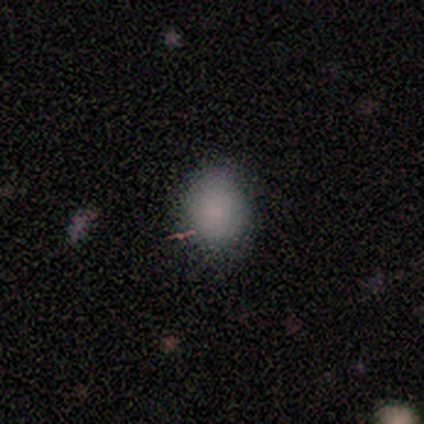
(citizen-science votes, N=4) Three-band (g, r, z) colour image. It shows a smooth galaxy with no disk features (100%) that is round (75%). Merging: none (100%).